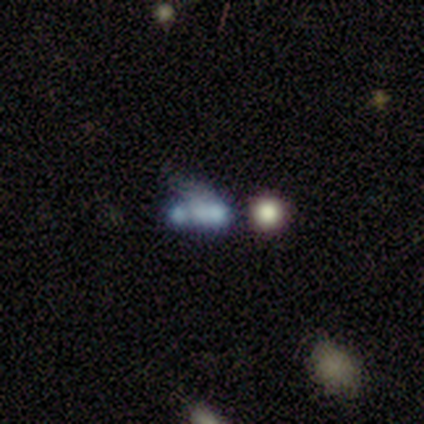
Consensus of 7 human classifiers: smooth_or_featured: featured or disk (p=0.57) [alt: smooth p=0.29]
disk_edge_on: no (p=1.00)
bar: no (p=1.00)
has_spiral_arms: no (p=1.00)
bulge_size: none (p=1.00)
merging: none (p=0.33) [tied with: merger p=0.33]